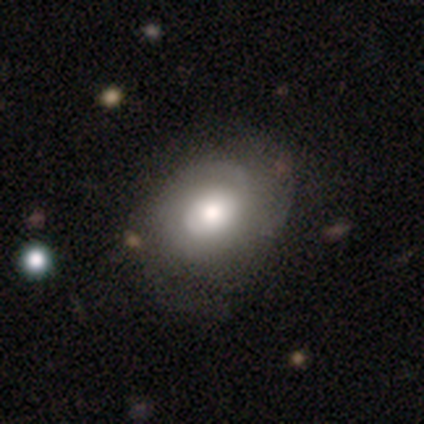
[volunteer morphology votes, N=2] Smooth or featured? 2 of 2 (100%) said featured or disk. Edge-on disk? 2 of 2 (100%) said no. Bar? 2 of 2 (100%) said no. Spiral arms? 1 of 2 (50%, tied with no) said yes. Spiral winding? 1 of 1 (100%) said tight. Spiral arm count? 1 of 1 (100%) said can't tell. Bulge size? 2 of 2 (100%) said moderate. Merging? 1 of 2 (50%, tied with major disturbance) said none.